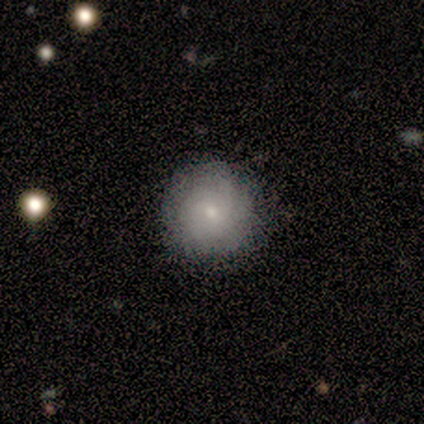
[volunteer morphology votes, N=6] Smooth or featured?
  - featured or disk: 67% *
  - smooth: 33%
  - star or artifact: 0%
Edge-on disk?
  - no: 100% *
  - yes: 0%
Bar?
  - weak: 50% * (tied)
  - no: 50% * (tied)
  - strong: 0%
Spiral arms?
  - yes: 50% * (tied)
  - no: 50% * (tied)
Spiral winding?
  - tight: 50% * (tied)
  - medium: 50% * (tied)
  - loose: 0%
Spiral arm count?
  - 2: 50% * (tied)
  - can't tell: 50% * (tied)
  - 1: 0%
  - 3: 0%
  - 4: 0%
  - more than 4: 0%
Bulge size?
  - moderate: 50% *
  - dominant: 25%
  - small: 25%
  - large: 0%
  - none: 0%
Merging?
  - none: 83% *
  - minor disturbance: 17%
  - major disturbance: 0%
  - merger: 0%